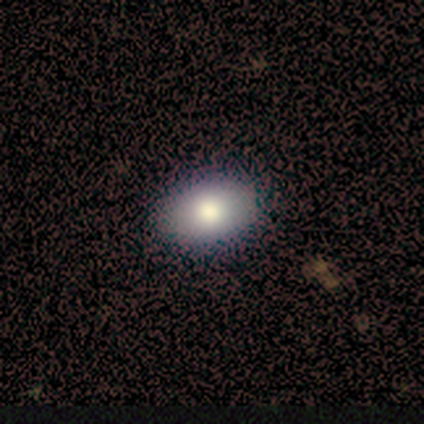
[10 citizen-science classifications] This appears to be a smooth galaxy with no disk features (70%) that is in between round and cigar-shaped (86%). Merging: none (100%).